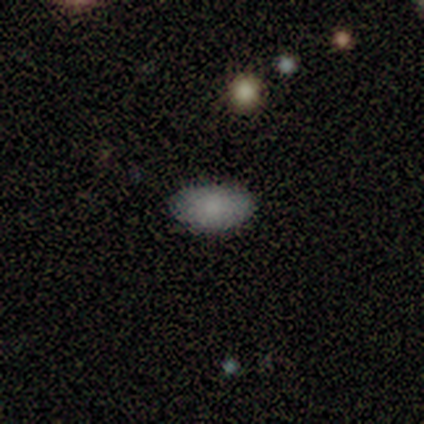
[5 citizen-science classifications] Volunteers were most divided on "smooth or featured": smooth: 80%, featured or disk: 20%, star or artifact: 0%. More confident: how rounded — in between (100%); merging — none (80%).